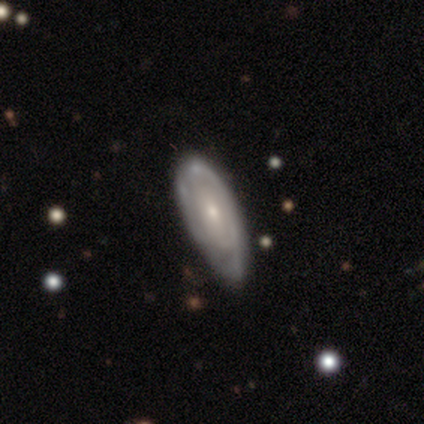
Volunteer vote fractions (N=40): A featured or disk galaxy (75%) with no bar (73%), tight (72%) spiral arms (60%) and a small central bulge (73%).

Vote fractions:
- Smooth or featured? featured or disk: 75% / smooth: 25% / star or artifact: 0%
- Edge-on disk? no: 100% / yes: 0%
- Bar? no: 73% / weak: 17% / strong: 10%
- Spiral arms? yes: 60% / no: 40%
- Spiral winding? tight: 72% / medium: 17% / loose: 11%
- Spiral arm count? can't tell: 61% / 2: 33% / 3: 6% / 1: 0% / 4: 0% / more than 4: 0%
- Bulge size? small: 73% / moderate: 23% / none: 3% / dominant: 0% / large: 0%
- Merging? none: 30% (tied) / minor disturbance: 30% (tied) / major disturbance: 2% / merger: 0%